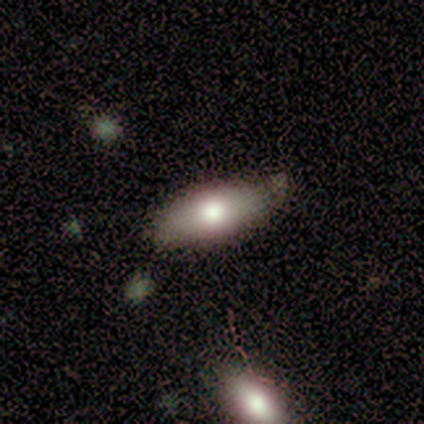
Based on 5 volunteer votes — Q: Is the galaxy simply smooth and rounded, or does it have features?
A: smooth — 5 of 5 (100%).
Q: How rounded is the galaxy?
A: in between — 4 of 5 (80%).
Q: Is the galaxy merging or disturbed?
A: none — 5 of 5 (100%).